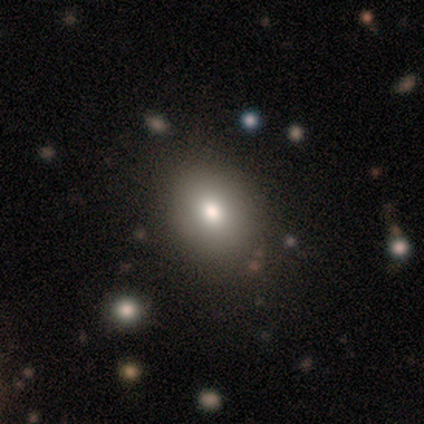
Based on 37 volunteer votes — Smooth or featured: smooth — 78% (star or artifact — 16%)
How rounded: round — 52% (in between — 48%)
Merging: none — 74% (minor disturbance — 10%)